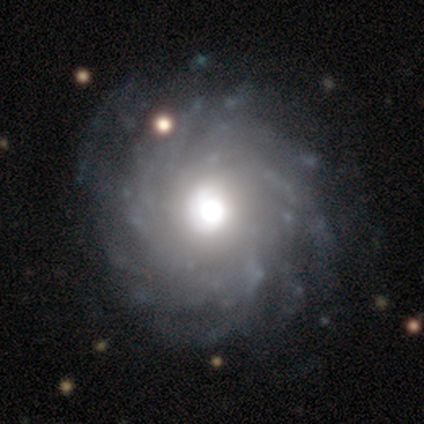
A featured or disk galaxy (80%) with no bar (100%), more than 4 (50%) tight (100%) spiral arms (100%) and a large central bulge (75%). Merging: none (100%).